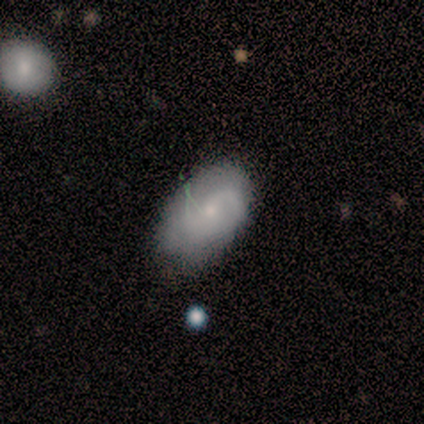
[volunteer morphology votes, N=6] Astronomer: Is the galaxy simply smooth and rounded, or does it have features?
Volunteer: smooth — 83%.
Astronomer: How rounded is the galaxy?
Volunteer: round — 40%, tied with in between at 40%.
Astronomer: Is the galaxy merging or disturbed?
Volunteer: none — 83%.